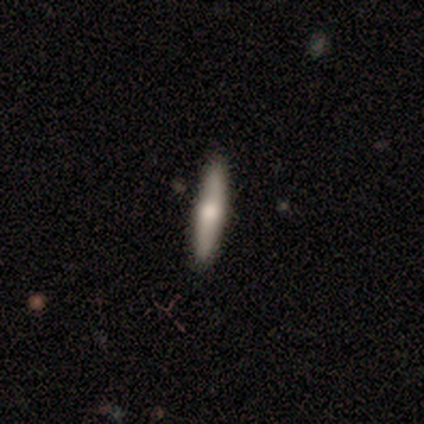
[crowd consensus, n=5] Smooth or featured? 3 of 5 (60%) said smooth. How rounded? 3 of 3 (100%) said cigar-shaped. Merging? 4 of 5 (80%) said none.